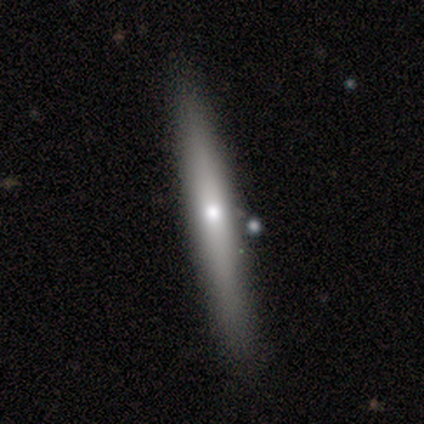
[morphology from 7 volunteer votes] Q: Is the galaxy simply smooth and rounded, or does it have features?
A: featured or disk — 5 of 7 (71%).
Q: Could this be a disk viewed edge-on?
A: yes — 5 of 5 (100%).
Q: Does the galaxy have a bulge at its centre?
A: rounded — 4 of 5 (80%).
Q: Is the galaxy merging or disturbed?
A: minor disturbance — 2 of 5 (40%, tied with major disturbance).